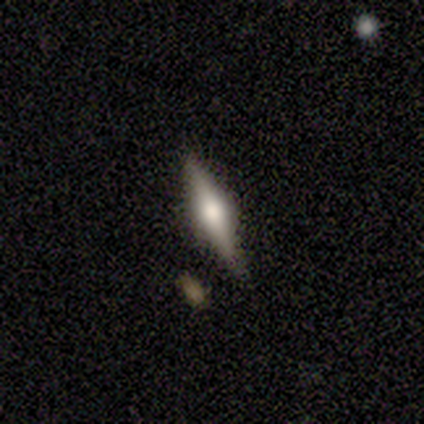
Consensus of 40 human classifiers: smooth-or-featured: featured or disk: 72% | smooth: 20% | star or artifact: 8%
  disk-edge-on: yes: 97% | no: 3%
    edge-on-bulge: rounded: 89% | boxy: 11% | none: 0%
  merging: none: 89% | minor disturbance: 8% | merger: 3% | major disturbance: 0%